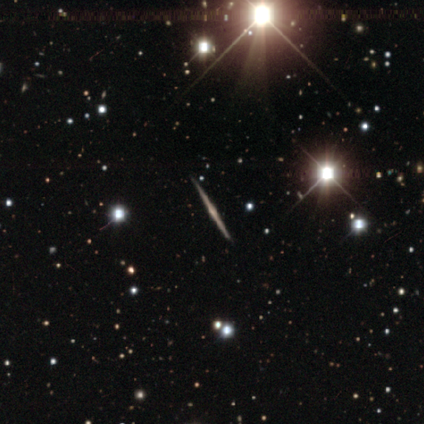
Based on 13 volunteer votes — smooth-or-featured: featured or disk: 100% | smooth: 0% | star or artifact: 0%
  disk-edge-on: yes: 100% | no: 0%
    edge-on-bulge: rounded: 69% | boxy: 15% | none: 15%
  merging: none: 92% | minor disturbance: 8% | major disturbance: 0% | merger: 0%